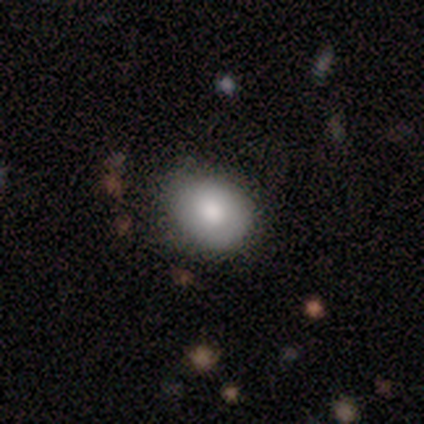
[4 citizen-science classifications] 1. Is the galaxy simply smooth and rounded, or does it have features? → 75% smooth, 25% featured or disk, 0% star or artifact.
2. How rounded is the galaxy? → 67% in between, 33% round, 0% cigar-shaped.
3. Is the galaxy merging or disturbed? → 100% none, 0% minor disturbance, 0% major disturbance, 0% merger.